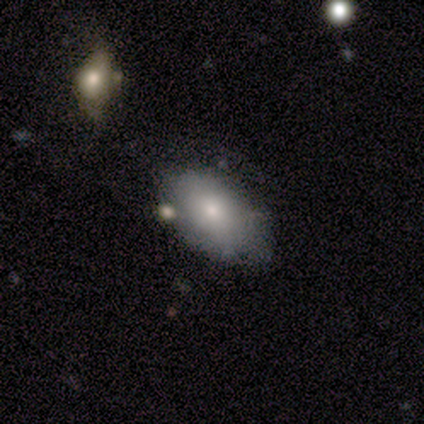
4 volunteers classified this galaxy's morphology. This is likely a smooth galaxy (75%). How rounded: likely in between (67%). Merging: clearly none (100%).